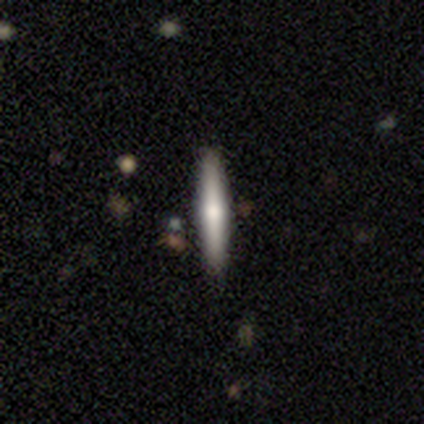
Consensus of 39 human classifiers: Volunteers were most divided on "smooth or featured": smooth: 51%, featured or disk: 38%, star or artifact: 10%. More confident: how rounded — cigar-shaped (95%); merging — none (86%).